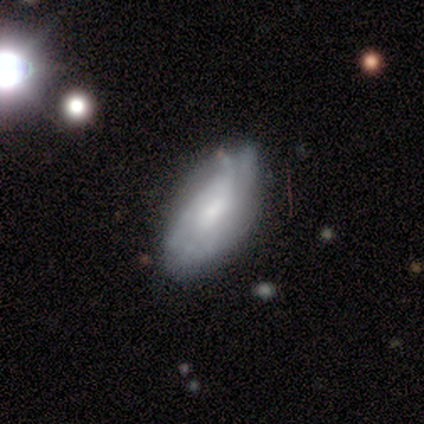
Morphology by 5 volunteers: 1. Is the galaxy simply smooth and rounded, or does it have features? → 80% featured or disk, 20% smooth, 0% star or artifact.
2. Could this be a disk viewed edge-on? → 100% no, 0% yes.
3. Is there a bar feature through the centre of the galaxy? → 50% weak (tied), 50% no (tied), 0% strong.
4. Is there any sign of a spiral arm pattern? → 75% yes, 25% no.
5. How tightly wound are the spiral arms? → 100% tight, 0% medium, 0% loose.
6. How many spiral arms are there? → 33% 1 (tied), 33% 3 (tied), 33% can't tell (tied), 0% 2, 0% 4, 0% more than 4.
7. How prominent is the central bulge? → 50% moderate, 25% large, 25% none, 0% dominant, 0% small.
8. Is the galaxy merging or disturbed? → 60% minor disturbance, 40% none, 0% major disturbance, 0% merger.